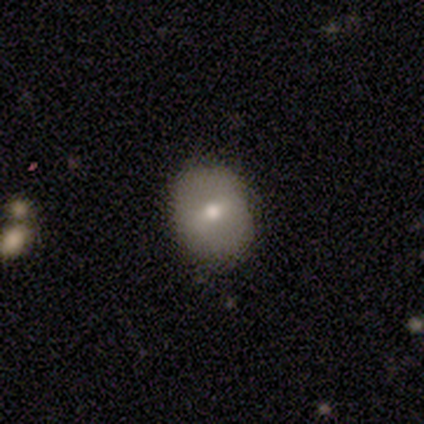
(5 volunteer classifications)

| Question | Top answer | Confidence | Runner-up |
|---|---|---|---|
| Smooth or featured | smooth | 100% | — |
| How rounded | round | 80% | in between (20%) |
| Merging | none | 80% | merger (20%) |